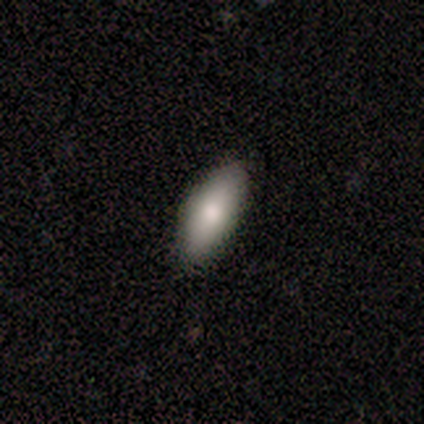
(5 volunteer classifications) Smooth or featured? smooth (80%)
How rounded? in between (50%, tied with cigar-shaped)
Merging? none (100%)